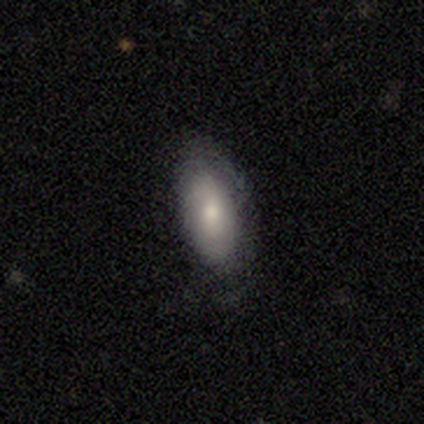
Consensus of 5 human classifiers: Smooth or featured?
  - smooth: 60% *
  - featured or disk: 20%
  - star or artifact: 20%
How rounded?
  - in between: 100% *
  - round: 0%
  - cigar-shaped: 0%
Merging?
  - none: 50% * (tied)
  - minor disturbance: 50% * (tied)
  - major disturbance: 0%
  - merger: 0%